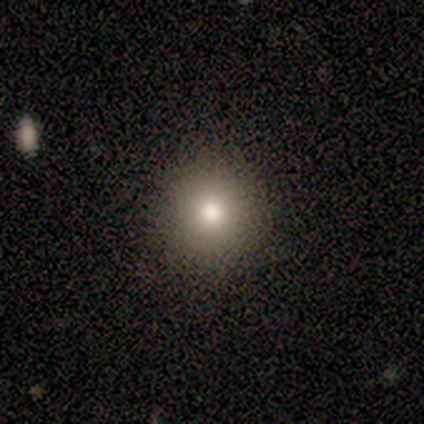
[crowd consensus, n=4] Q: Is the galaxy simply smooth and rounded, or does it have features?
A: smooth — 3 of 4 (75%).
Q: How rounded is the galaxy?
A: round — 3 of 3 (100%).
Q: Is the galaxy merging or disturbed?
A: none — 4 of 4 (100%).